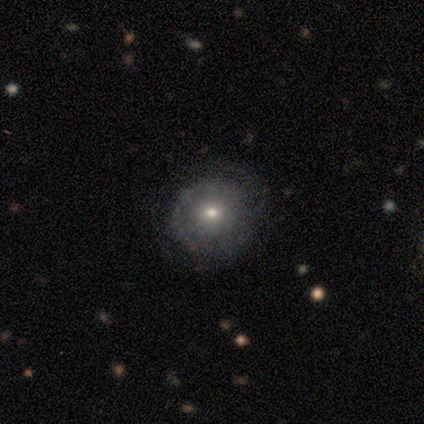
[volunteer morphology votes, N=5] smooth-or-featured: smooth: 60% | featured or disk: 40% | star or artifact: 0%
  how-rounded: round: 100% | in between: 0% | cigar-shaped: 0%
  merging: none: 100% | minor disturbance: 0% | major disturbance: 0% | merger: 0%